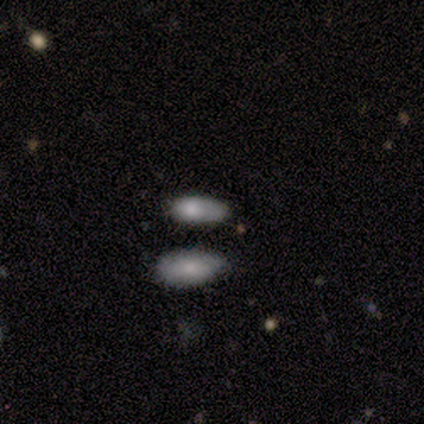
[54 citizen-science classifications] Overall: smooth (70%). How rounded: in between (95%). Merging: none (46%; minor disturbance 26%).